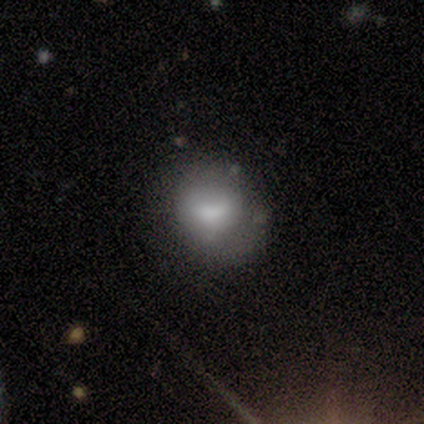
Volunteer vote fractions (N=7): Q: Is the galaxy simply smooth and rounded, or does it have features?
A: smooth — 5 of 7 (71%).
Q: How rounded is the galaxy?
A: round — 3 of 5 (60%).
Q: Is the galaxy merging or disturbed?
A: none — 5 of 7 (71%).